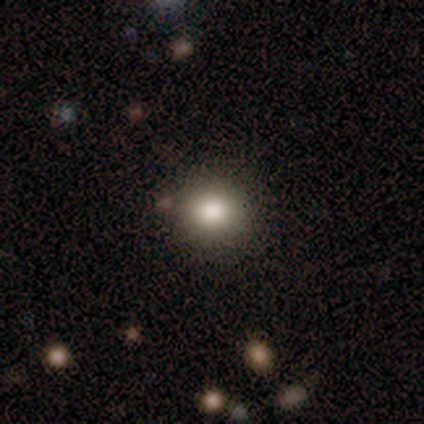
A smooth galaxy with no disk features (78%) that is round (81%). Merging: none (88%).